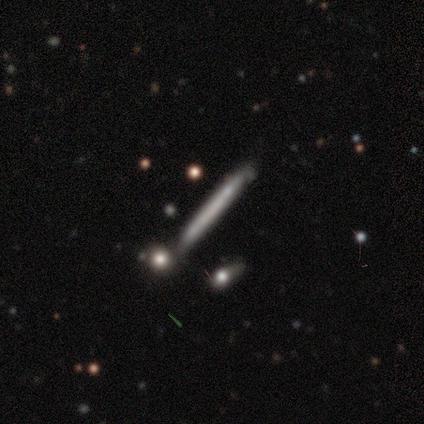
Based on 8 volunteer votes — Smooth or featured? featured or disk (88%)
Edge-on disk? yes (86%)
Edge-on bulge? none (100%)
Merging? none (62%)